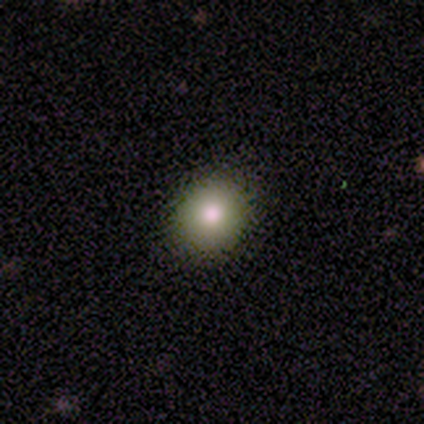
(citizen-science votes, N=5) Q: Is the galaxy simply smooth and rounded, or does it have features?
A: smooth — 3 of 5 (60%).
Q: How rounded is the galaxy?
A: round — 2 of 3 (67%).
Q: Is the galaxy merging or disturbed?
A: none — 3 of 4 (75%).